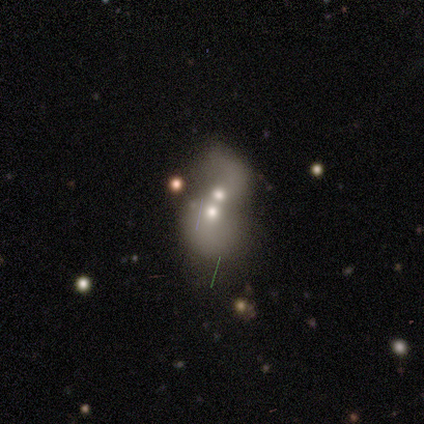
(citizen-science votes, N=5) smooth 80%, featured or disk 20%, star or artifact 0%. Down the decision tree: how rounded — round (50%, tied with in between); merging — merger (100%).